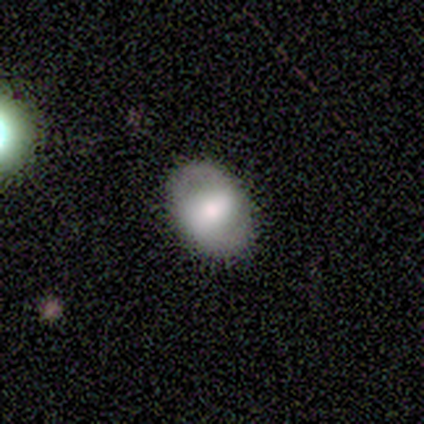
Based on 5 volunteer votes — Smooth or featured: smooth — 60% (featured or disk — 40%)
How rounded: in between — 100%
Merging: none — 100%